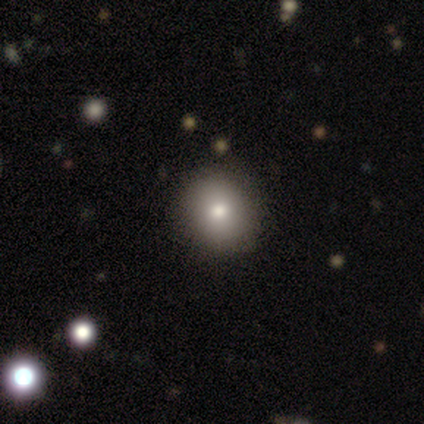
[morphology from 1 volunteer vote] This appears to be a smooth galaxy with no disk features (100%) that is round (100%). Merging: none (100%).